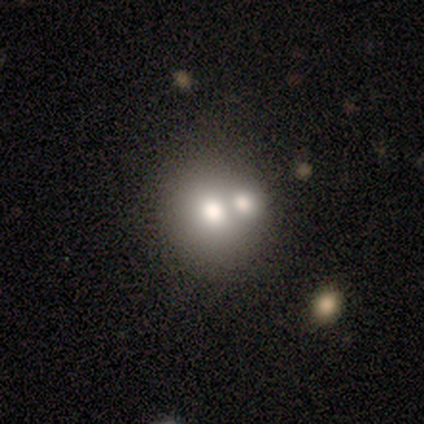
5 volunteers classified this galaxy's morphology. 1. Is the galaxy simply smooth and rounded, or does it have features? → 40% smooth (tied), 40% star or artifact (tied), 20% featured or disk.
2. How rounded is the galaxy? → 100% in between, 0% round, 0% cigar-shaped.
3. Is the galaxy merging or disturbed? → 67% merger, 33% none, 0% minor disturbance, 0% major disturbance.